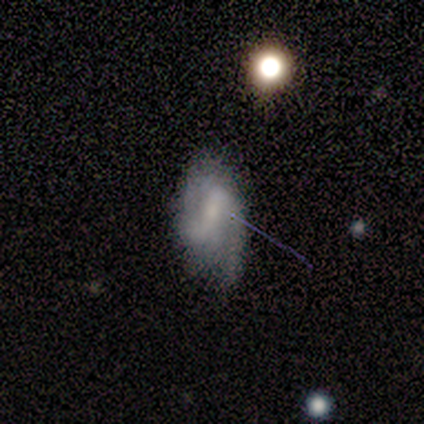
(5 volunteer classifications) smooth_or_featured: smooth (p=0.60) [alt: featured or disk p=0.40]
how_rounded: in between (p=0.67) [alt: round p=0.33]
merging: none (p=0.80) [alt: minor disturbance p=0.20]